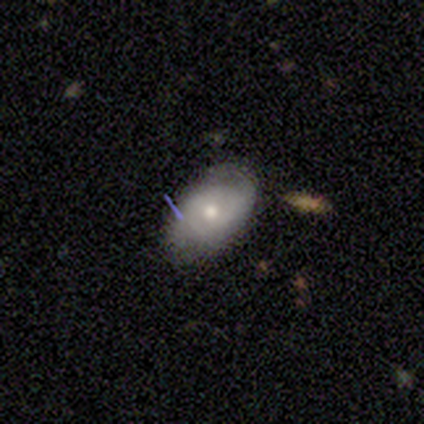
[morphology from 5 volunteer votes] This is likely a featured or disk galaxy (60%). It is likely not viewed edge-on (67%). Bar: clearly no (100%). Spiral arm pattern: clearly yes (100%). Spiral arm count: possibly 2 (50%, tied with can't tell). Spiral winding: possibly tight (50%, tied with medium). Central bulge: possibly moderate (50%, tied with small). Merging: clearly none (80%).